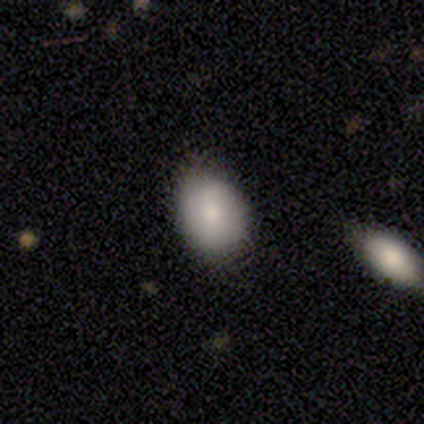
Overall: smooth (71%). How rounded: in between (60%; round 40%). Merging: none (86%).